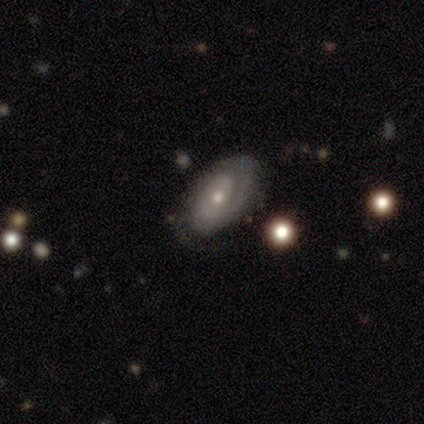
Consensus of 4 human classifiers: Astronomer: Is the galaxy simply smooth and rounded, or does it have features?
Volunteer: featured or disk — 75%.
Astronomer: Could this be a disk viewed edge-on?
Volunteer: no — 67%.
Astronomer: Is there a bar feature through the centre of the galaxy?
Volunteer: weak — 50%, tied with no at 50%.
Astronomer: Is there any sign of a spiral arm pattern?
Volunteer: yes — 50%, tied with no at 50%.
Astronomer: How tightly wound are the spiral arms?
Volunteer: medium — 100%.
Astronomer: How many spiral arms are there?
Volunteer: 2 — 100%.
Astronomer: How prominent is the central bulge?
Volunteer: moderate — 100%.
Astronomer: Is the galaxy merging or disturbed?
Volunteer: none — 50%, tied with minor disturbance at 50%.